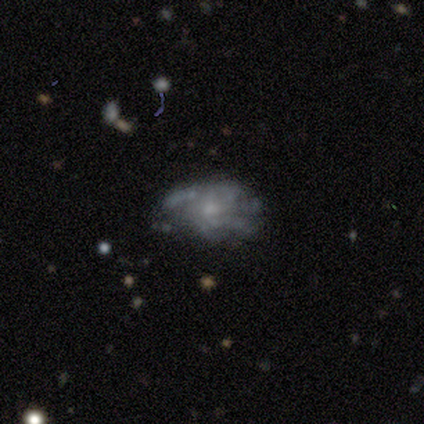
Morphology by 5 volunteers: This is likely a featured or disk galaxy (60%). It is clearly not viewed edge-on (100%). Bar: clearly no (100%). Spiral arm pattern: likely yes (67%). Spiral arm count: clearly can't tell (100%). Spiral winding: possibly tight (50%, tied with medium). Central bulge: likely small (67%). Merging: marginally none (40%, tied with minor disturbance).